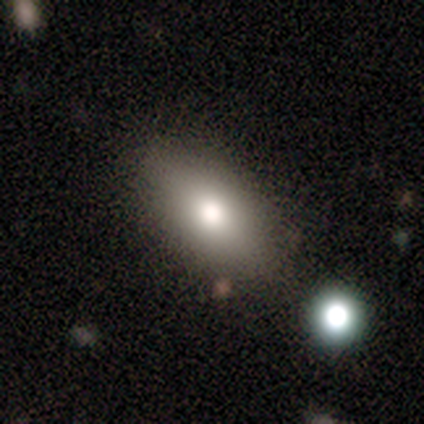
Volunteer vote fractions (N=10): Q: Smooth or featured?
A: smooth (100%)
Q: How rounded?
A: in between (100%)
Q: Merging?
A: none (90%); runner-up: minor disturbance (10%)